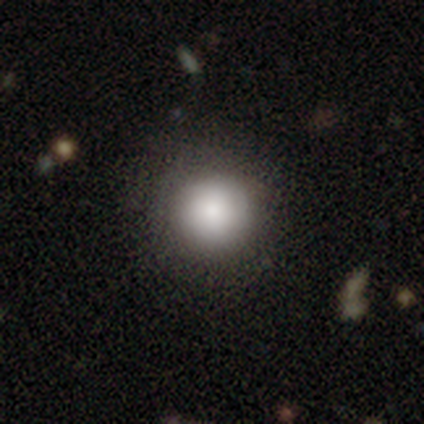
Volunteers were most divided on "merging": none: 82%, minor disturbance: 17%, merger: 1%, major disturbance: 0%. More confident: how rounded — round (95%); smooth or featured — smooth (87%).